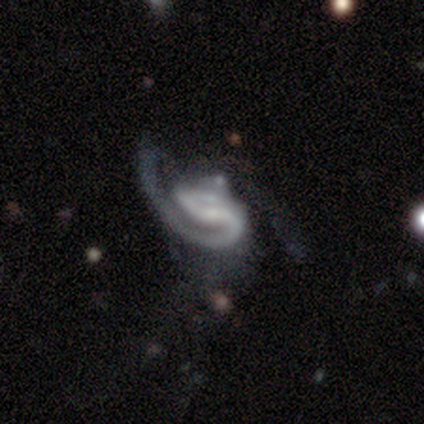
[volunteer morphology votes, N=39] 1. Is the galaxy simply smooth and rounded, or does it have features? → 92% featured or disk, 8% star or artifact, 0% smooth.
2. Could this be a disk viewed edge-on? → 100% no, 0% yes.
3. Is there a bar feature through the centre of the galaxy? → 36% strong (tied), 36% weak (tied), 28% no.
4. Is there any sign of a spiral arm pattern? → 94% yes, 6% no.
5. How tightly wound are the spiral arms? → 53% medium, 26% loose, 21% tight.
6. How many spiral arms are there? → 50% 2, 44% 1, 6% can't tell, 0% 3, 0% 4, 0% more than 4.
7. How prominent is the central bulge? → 36% small (tied), 36% none (tied), 22% moderate, 6% large, 0% dominant.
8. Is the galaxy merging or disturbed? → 47% major disturbance, 31% none, 14% merger, 8% minor disturbance.